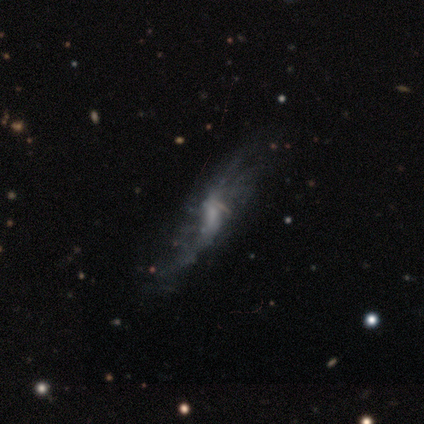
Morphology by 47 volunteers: This is clearly a featured or disk galaxy (81%). It is clearly not viewed edge-on (82%). Bar: possibly weak (45%, tied with no). Spiral arm pattern: possibly yes (52%). Spiral arm count: marginally more than 4 (31%). Spiral winding: possibly loose (50%). Central bulge: marginally none (42%). Merging: marginally none (37%).